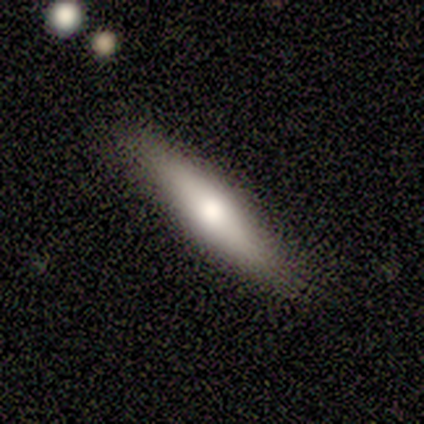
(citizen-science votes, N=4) smooth-or-featured: smooth: 50% (tied) | featured or disk: 50% (tied) | star or artifact: 0%
  how-rounded: cigar-shaped: 100% | round: 0% | in between: 0%
  merging: none: 75% | minor disturbance: 25% | major disturbance: 0% | merger: 0%